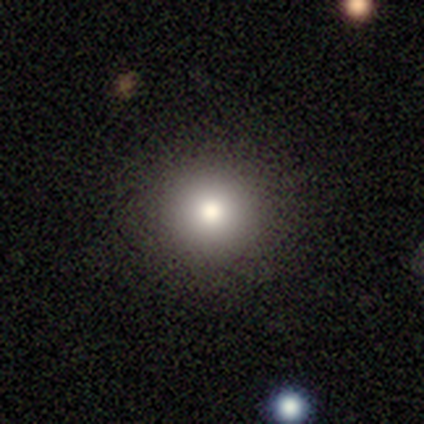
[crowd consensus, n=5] A smooth galaxy with no disk features (80%) that is round (100%). Merging: none (100%).